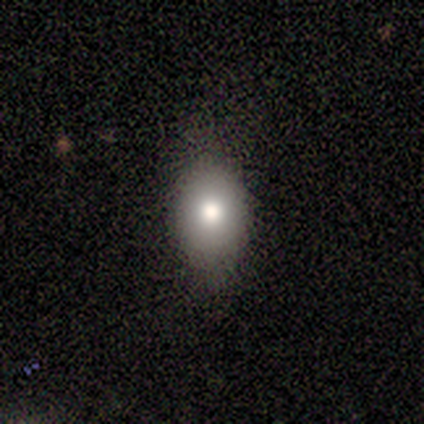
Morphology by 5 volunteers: type=smooth (100%); roundness=in between (60%); merging=none (60%).